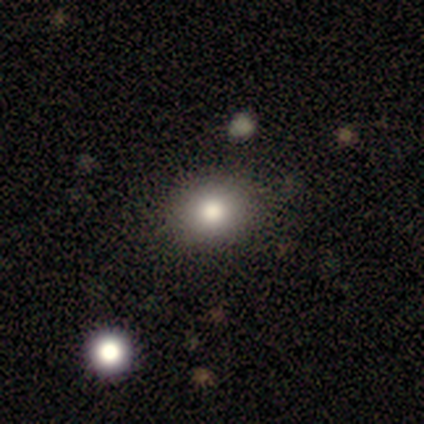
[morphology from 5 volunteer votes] Q: Smooth or featured?
A: smooth (100%)
Q: How rounded?
A: in between (60%); runner-up: round (40%)
Q: Merging?
A: none (100%)